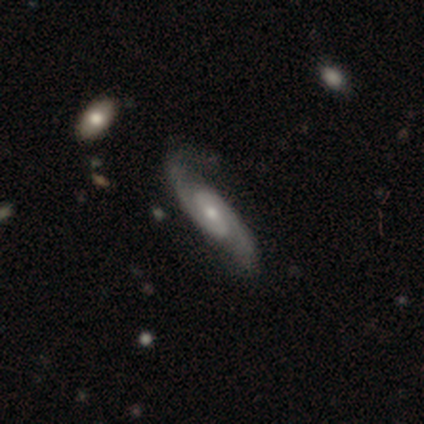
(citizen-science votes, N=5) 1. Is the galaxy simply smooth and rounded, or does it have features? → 100% featured or disk, 0% smooth, 0% star or artifact.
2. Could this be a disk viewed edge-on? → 100% no, 0% yes.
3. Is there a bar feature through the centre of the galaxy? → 40% weak (tied), 40% no (tied), 20% strong.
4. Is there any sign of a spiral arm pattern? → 100% yes, 0% no.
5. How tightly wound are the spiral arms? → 60% tight, 40% medium, 0% loose.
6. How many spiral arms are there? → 100% 2, 0% 1, 0% 3, 0% 4, 0% more than 4, 0% can't tell.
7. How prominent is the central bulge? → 60% moderate, 40% small, 0% dominant, 0% large, 0% none.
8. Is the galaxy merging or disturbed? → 80% none, 20% minor disturbance, 0% major disturbance, 0% merger.